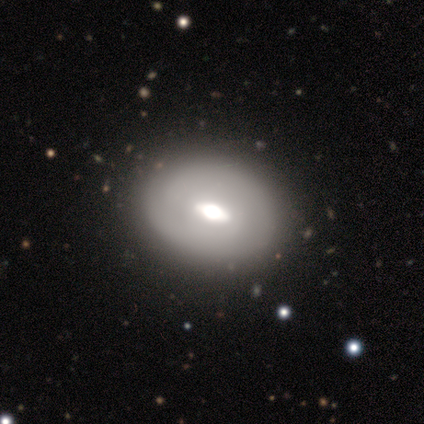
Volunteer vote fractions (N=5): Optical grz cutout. It shows a smooth galaxy with no disk features (60%) that is in between round and cigar-shaped (100%). Merging: none (80%).